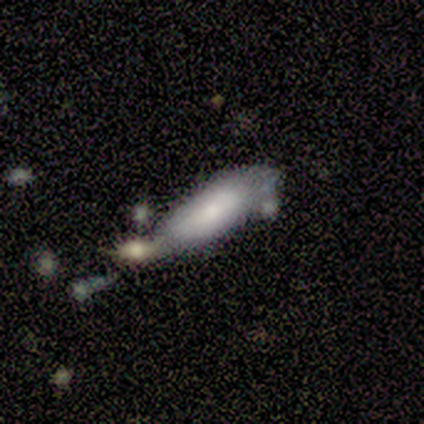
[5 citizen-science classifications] Overall: smooth (40%, tied with featured or disk). How rounded: in between (100%). Merging: none (50%, tied with merger).